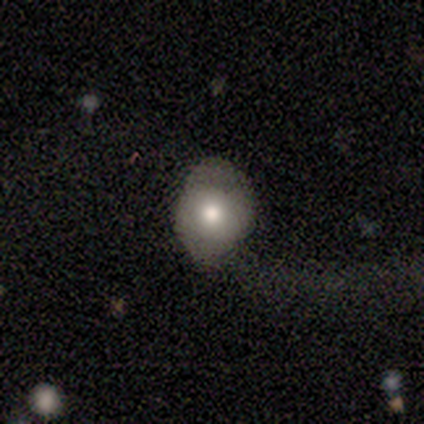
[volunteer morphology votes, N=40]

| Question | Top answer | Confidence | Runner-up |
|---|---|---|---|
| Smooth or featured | smooth | 57% | featured or disk (38%) |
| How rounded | in between | 83% | round (17%) |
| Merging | major disturbance | 53% | none (29%) |